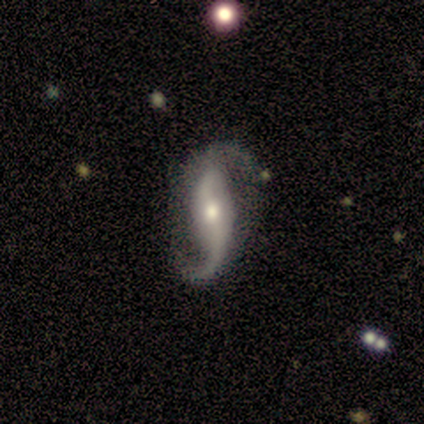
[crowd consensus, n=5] Smooth or featured? 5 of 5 (100%) said featured or disk. Edge-on disk? 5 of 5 (100%) said no. Bar? 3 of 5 (60%) said weak. Spiral arms? 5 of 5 (100%) said yes. Spiral winding? 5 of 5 (100%) said loose. Spiral arm count? 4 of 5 (80%) said 2. Bulge size? 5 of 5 (100%) said moderate. Merging? 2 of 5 (40%) said none.